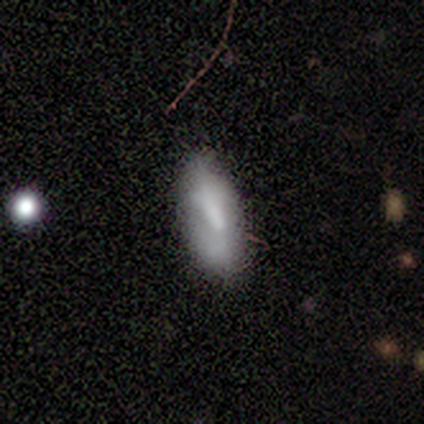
Smooth or featured?
  - smooth: 76% *
  - featured or disk: 24%
  - star or artifact: 0%
How rounded?
  - in between: 69% *
  - cigar-shaped: 31%
  - round: 0%
Merging?
  - none: 63% *
  - minor disturbance: 32%
  - major disturbance: 5%
  - merger: 0%